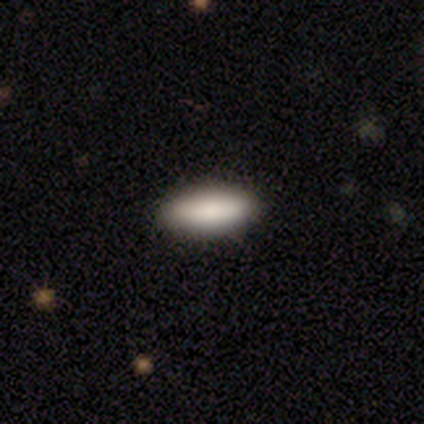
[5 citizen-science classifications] This appears to be a smooth galaxy with no disk features (100%) that is cigar-shaped (60%). Merging: none (100%).